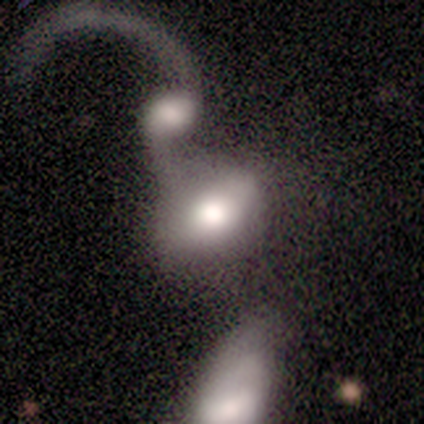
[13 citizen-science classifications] Smooth or featured: smooth — 69% (featured or disk — 31%)
How rounded: in between — 78% (round — 22%)
Merging: merger — 85% (none — 15%)